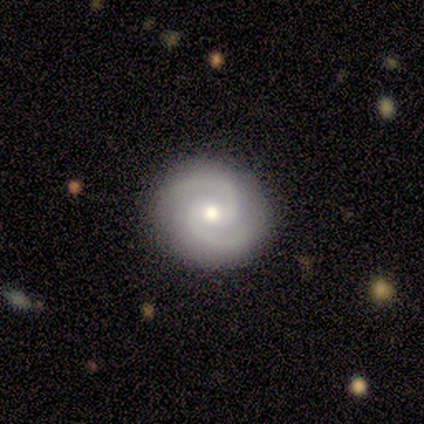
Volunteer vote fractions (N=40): featured or disk 85%, smooth 15%, star or artifact 0%. Down the decision tree: edge-on disk — no (100%); bar — weak (44%); spiral arms — yes (97%); spiral arm count — 2 (85%); spiral winding — medium (79%); bulge size — moderate (68%); merging — none (90%).